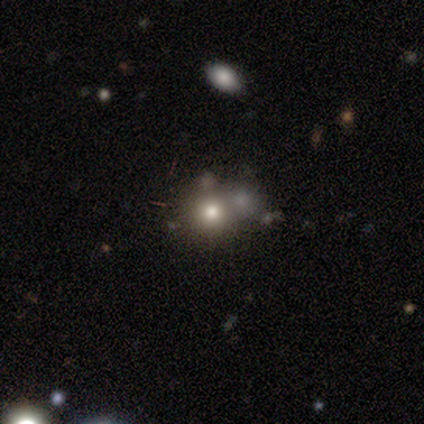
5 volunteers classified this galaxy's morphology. smooth_or_featured: smooth (p=0.60) [alt: featured or disk p=0.40]
how_rounded: round (p=1.00)
merging: none (p=0.80) [alt: merger p=0.20]